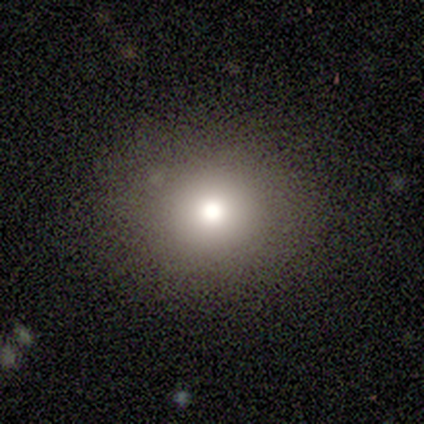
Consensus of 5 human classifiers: This appears to be a smooth galaxy with no disk features (40%, tied with featured or disk) that is round (100%). Merging: none (100%).